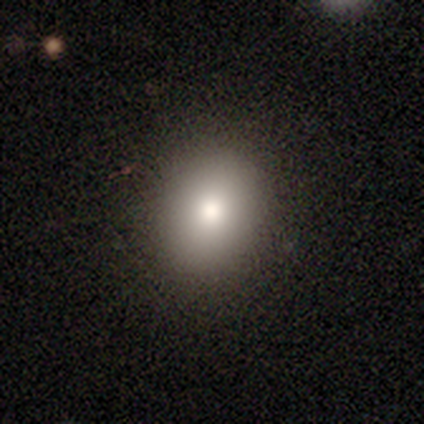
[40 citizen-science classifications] A smooth galaxy with no disk features (85%) that is round (56%).

Vote fractions:
- Smooth or featured? smooth: 85% / featured or disk: 10% / star or artifact: 5%
- How rounded? round: 56% / in between: 41% / cigar-shaped: 3%
- Merging? none: 87% / minor disturbance: 11% / major disturbance: 3% / merger: 0%